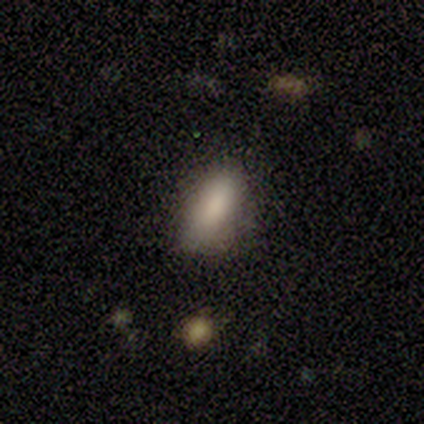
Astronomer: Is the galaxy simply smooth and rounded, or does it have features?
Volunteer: smooth — 80%.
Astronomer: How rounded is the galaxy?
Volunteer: in between — 75%.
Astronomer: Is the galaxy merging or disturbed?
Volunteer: none — 50%, tied with minor disturbance at 50%.